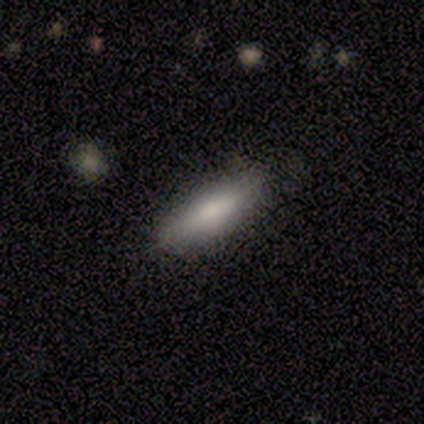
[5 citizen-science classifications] Smooth or featured?
  - featured or disk: 60% *
  - smooth: 40%
  - star or artifact: 0%
Edge-on disk?
  - yes: 67% *
  - no: 33%
Edge-on bulge?
  - rounded: 100% *
  - boxy: 0%
  - none: 0%
Merging?
  - none: 100% *
  - minor disturbance: 0%
  - major disturbance: 0%
  - merger: 0%